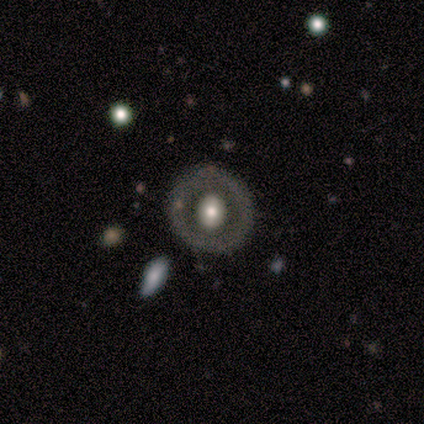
A featured or disk galaxy (80%) with no bar (75%), no spiral arms (100%) and a large central bulge (50%, tied with moderate). Merging: none (100%).